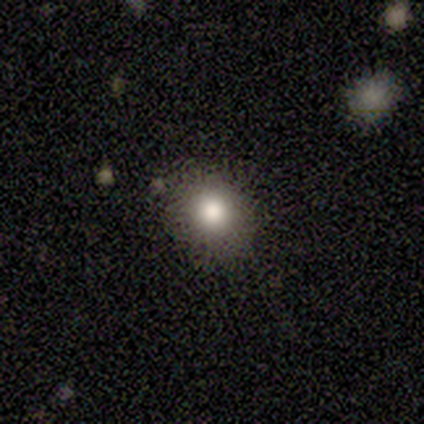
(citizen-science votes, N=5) A smooth galaxy with no disk features (80%) that is round (75%).

Vote fractions:
- Smooth or featured? smooth: 80% / featured or disk: 20% / star or artifact: 0%
- How rounded? round: 75% / in between: 25% / cigar-shaped: 0%
- Merging? none: 60% / minor disturbance: 40% / major disturbance: 0% / merger: 0%